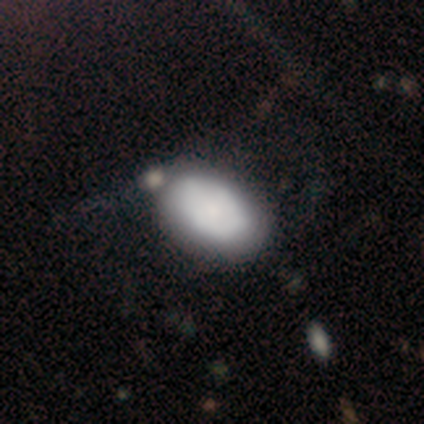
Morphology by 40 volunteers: Smooth or featured? 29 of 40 (72%) said smooth. How rounded? 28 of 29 (97%) said in between. Merging? 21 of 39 (54%) said none.